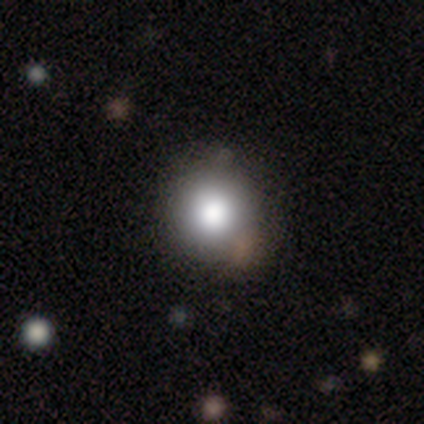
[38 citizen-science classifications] smooth-or-featured: smooth: 74% | star or artifact: 16% | featured or disk: 11%
  how-rounded: round: 93% | in between: 7% | cigar-shaped: 0%
  merging: none: 84% | merger: 9% | minor disturbance: 3% | major disturbance: 3%